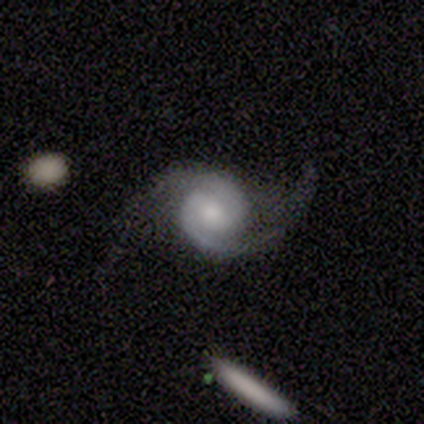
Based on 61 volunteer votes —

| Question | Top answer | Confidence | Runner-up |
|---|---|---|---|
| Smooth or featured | featured or disk | 93% | smooth (3%) |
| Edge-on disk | no | 100% | — |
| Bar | weak | 56% | no (33%) |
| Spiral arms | yes | 100% | — |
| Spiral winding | tight | 39% | tied: medium (39%) |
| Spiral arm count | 2 | 95% | 3 (4%) |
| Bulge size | moderate | 49% | small (32%) |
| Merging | none | 49% | major disturbance (34%) |